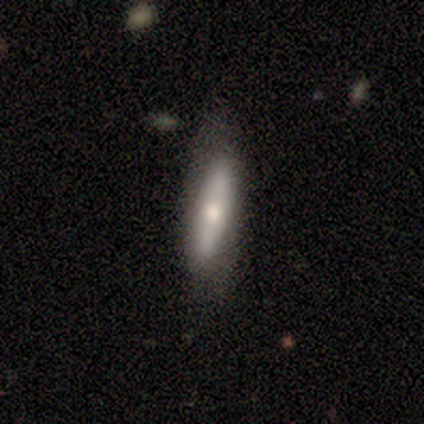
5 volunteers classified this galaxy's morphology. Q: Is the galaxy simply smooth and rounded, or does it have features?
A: smooth — 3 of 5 (60%).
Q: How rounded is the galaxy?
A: cigar-shaped — 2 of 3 (67%).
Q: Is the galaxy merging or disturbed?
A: none — 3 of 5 (60%).